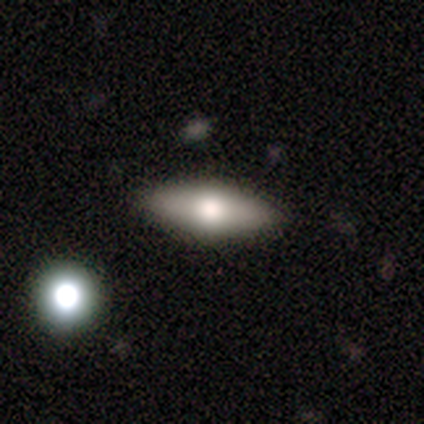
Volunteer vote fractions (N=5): This is clearly a featured or disk galaxy (80%). It is likely viewed edge-on (75%). Edge-on bulge: clearly rounded (100%). Merging: clearly none (100%).